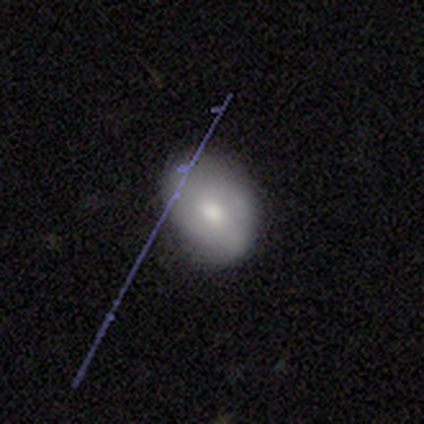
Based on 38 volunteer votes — Volunteers were most divided on "how rounded": in between: 62%, round: 38%, cigar-shaped: 0%. More confident: merging — none (66%); smooth or featured — smooth (55%).